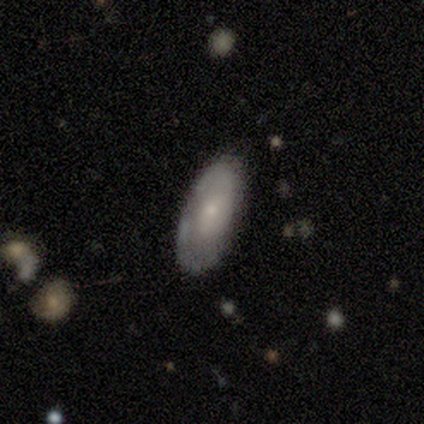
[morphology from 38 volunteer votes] smooth 58%, featured or disk 39%, star or artifact 3%. Down the decision tree: how rounded — in between (86%); merging — none (62%).